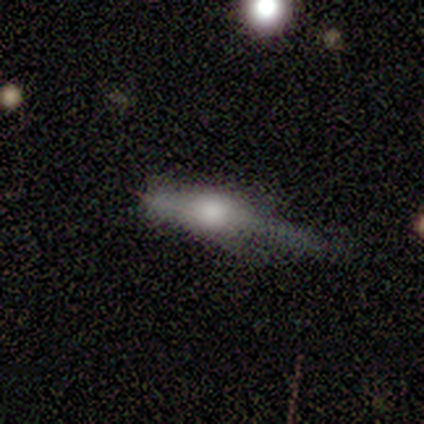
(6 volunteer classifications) smooth_or_featured: smooth (p=0.67) [alt: featured or disk p=0.17]
how_rounded: in between (p=0.50) [tied with: cigar-shaped p=0.50]
merging: minor disturbance (p=0.40) [tied with: major disturbance p=0.40]